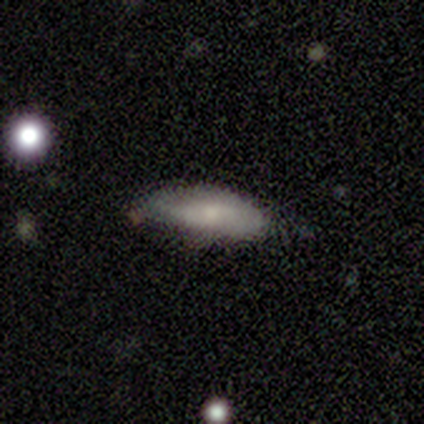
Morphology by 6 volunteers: This is possibly a featured or disk galaxy (50%). It is clearly not viewed edge-on (100%). Bar: clearly no (100%). Spiral arm pattern: likely no (67%). Central bulge: likely moderate (67%). Merging: likely minor disturbance (60%).